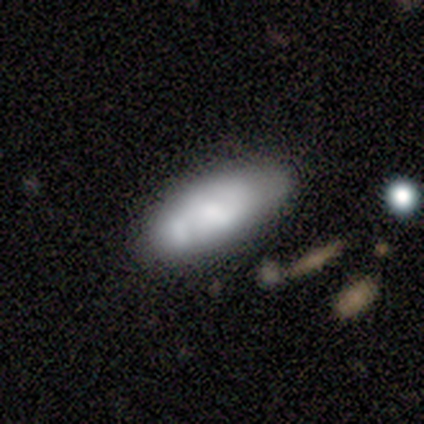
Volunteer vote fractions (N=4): smooth_or_featured: smooth (p=0.50) [tied with: featured or disk p=0.50]
how_rounded: in between (p=0.50) [tied with: cigar-shaped p=0.50]
merging: none (p=0.50) [alt: minor disturbance p=0.25]